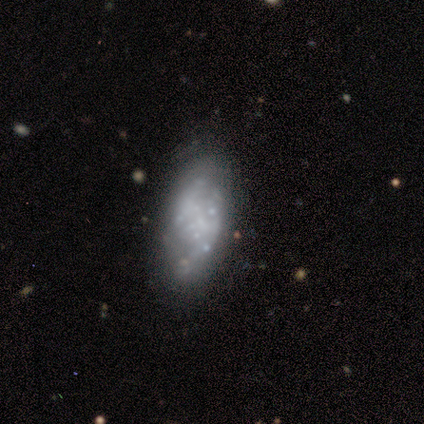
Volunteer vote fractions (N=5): Smooth or featured? 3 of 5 (60%) said featured or disk. Edge-on disk? 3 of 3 (100%) said no. Bar? 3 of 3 (100%) said no. Spiral arms? 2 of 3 (67%) said no. Bulge size? 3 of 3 (100%) said none. Merging? 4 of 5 (80%) said none.